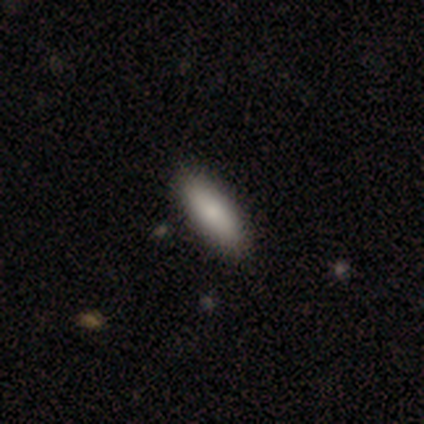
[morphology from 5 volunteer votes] Smooth or featured? smooth (80%)
How rounded? in between (75%)
Merging? none (100%)